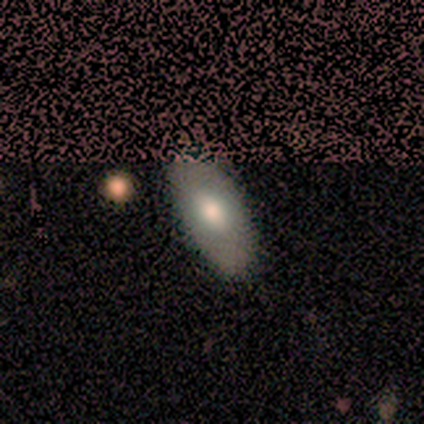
smooth_or_featured: smooth (p=0.57) [alt: featured or disk p=0.29]
how_rounded: in between (p=1.00)
merging: none (p=0.83) [alt: minor disturbance p=0.17]